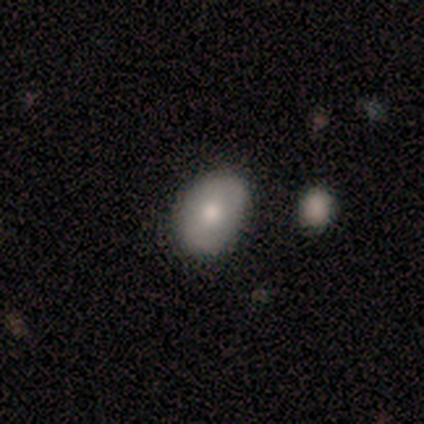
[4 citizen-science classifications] Q: Smooth or featured?
A: smooth (75%); runner-up: featured or disk (25%)
Q: How rounded?
A: round (67%); runner-up: in between (33%)
Q: Merging?
A: none (100%)